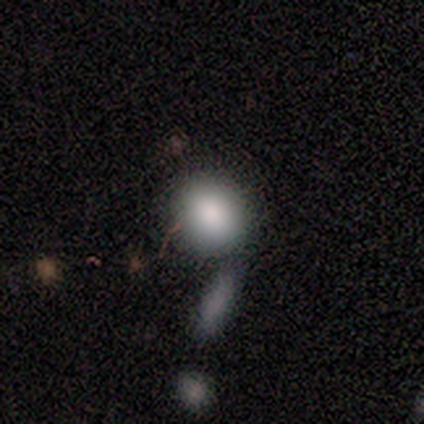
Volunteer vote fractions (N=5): A smooth galaxy with no disk features (100%) that is round (100%). Merging: none (40%).